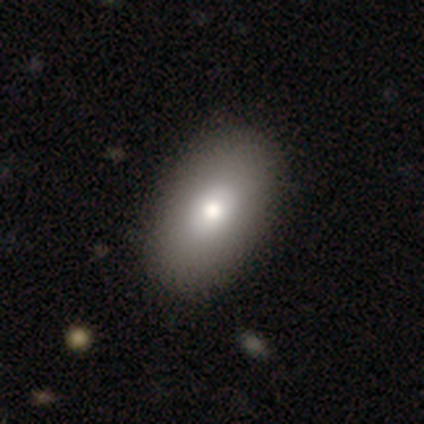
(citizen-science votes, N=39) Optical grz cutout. It shows a smooth galaxy with no disk features (82%) that is in between round and cigar-shaped (91%). Merging: none (74%).